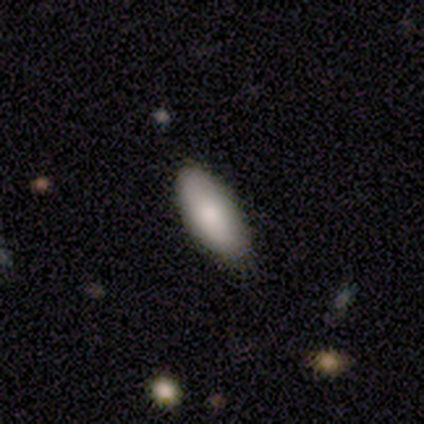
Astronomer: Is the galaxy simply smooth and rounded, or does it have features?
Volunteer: smooth — 75%.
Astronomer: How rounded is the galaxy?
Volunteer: in between — 100%.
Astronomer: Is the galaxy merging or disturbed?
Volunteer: none — 75%.